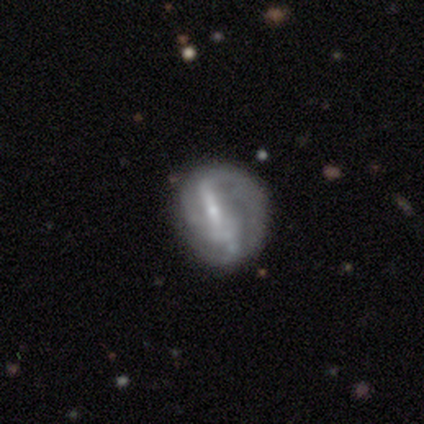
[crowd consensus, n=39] Smooth or featured? featured or disk (74%)
Edge-on disk? no (97%)
Bar? strong (57%)
Spiral arms? yes (64%)
Spiral winding? loose (50%)
Spiral arm count? 2 (44%)
Bulge size? small (71%)
Merging? none (65%)